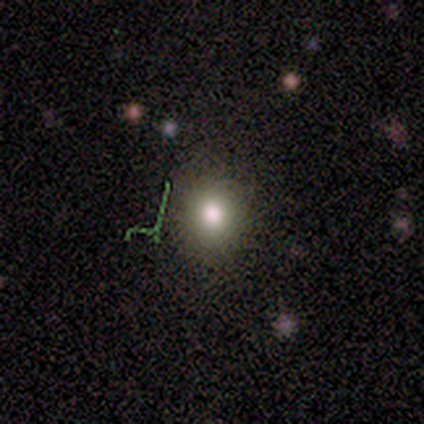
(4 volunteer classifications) smooth_or_featured: smooth (p=0.50) [alt: featured or disk p=0.25]
how_rounded: in between (p=1.00)
merging: none (p=0.67) [alt: major disturbance p=0.33]